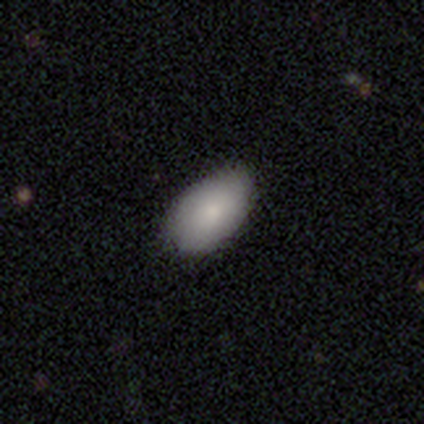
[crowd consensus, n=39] Volunteers were most divided on "merging": none: 76%, minor disturbance: 24%, major disturbance: 0%, merger: 0%. More confident: how rounded — in between (94%); smooth or featured — smooth (90%).